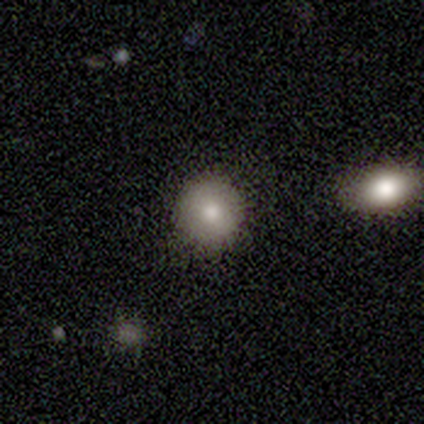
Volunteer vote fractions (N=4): smooth 100%, featured or disk 0%, star or artifact 0%. Down the decision tree: how rounded — round (100%); merging — none (100%).